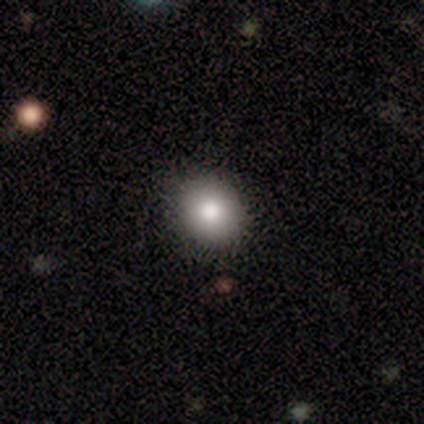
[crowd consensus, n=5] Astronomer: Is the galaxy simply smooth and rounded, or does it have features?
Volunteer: smooth — 100%.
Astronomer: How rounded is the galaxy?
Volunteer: round — 80%.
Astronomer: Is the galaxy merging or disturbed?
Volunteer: none — 60%.